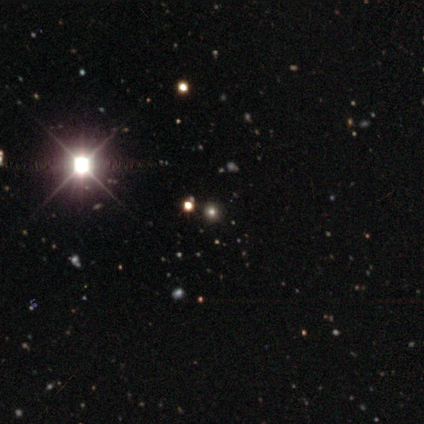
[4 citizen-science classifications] smooth-or-featured: star or artifact: 75% | smooth: 25% | featured or disk: 0%